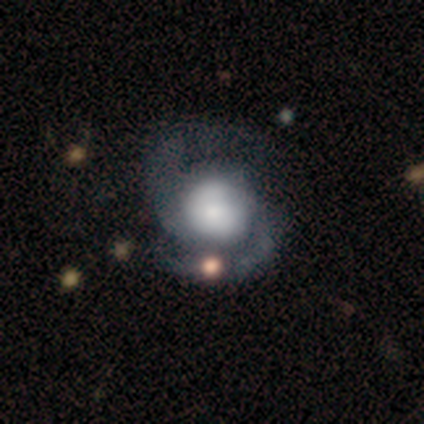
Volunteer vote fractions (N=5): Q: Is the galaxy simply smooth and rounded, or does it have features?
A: featured or disk — 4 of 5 (80%).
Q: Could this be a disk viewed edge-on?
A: no — 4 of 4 (100%).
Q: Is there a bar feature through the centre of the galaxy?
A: no — 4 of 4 (100%).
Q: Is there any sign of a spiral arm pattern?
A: yes — 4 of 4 (100%).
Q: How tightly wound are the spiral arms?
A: medium — 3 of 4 (75%).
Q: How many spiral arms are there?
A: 2 — 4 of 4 (100%).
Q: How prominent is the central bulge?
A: dominant — 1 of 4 (25%, tied with large, small and none).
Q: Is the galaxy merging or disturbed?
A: none — 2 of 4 (50%).